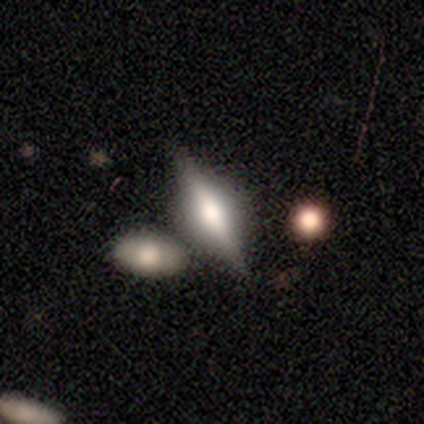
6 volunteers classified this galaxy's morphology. Smooth or featured: smooth — 67% (featured or disk — 33%)
How rounded: in between — 50% (tied with cigar-shaped — 50%)
Merging: none — 83% (minor disturbance — 17%)